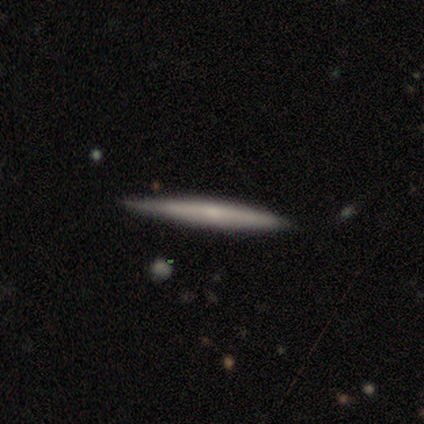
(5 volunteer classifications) Overall: featured or disk (80%). Edge-on disk: yes (100%). Edge-on bulge: none (50%, tied with rounded). Merging: none (60%; minor disturbance 40%).